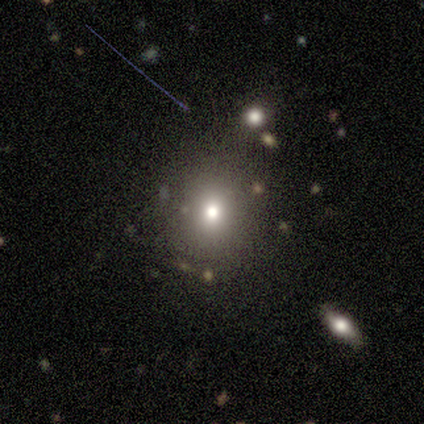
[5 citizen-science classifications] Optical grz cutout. It shows a smooth galaxy with no disk features (100%) that is round (100%). Merging: none (80%).